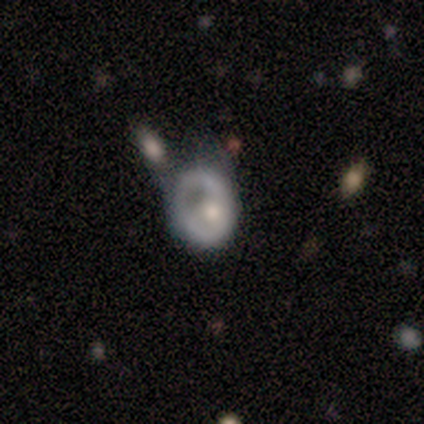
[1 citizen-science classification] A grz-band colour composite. It shows a featured or disk galaxy (100%) with no bar (100%), no spiral arms (100%) and a dominant central bulge (100%). Merging: major disturbance (100%).